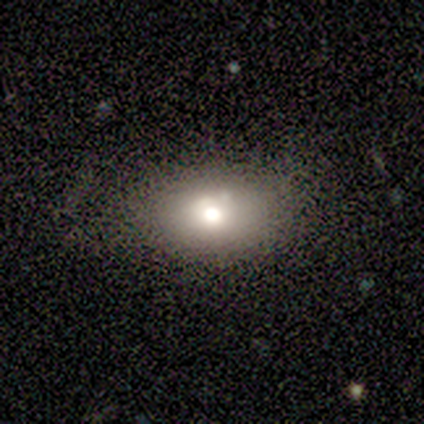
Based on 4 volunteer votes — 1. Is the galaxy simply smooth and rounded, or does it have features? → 75% smooth, 25% featured or disk, 0% star or artifact.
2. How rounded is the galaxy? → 100% in between, 0% round, 0% cigar-shaped.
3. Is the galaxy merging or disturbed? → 75% none, 25% major disturbance, 0% minor disturbance, 0% merger.